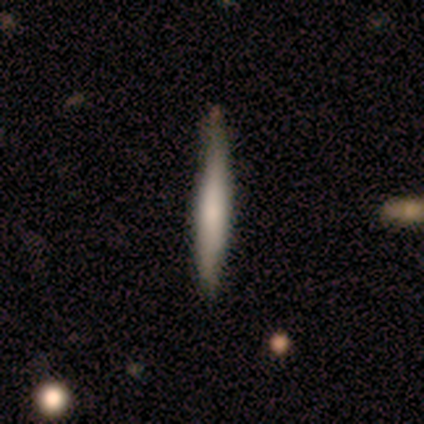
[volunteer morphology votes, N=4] Smooth or featured?
  - smooth: 75% *
  - featured or disk: 25%
  - star or artifact: 0%
How rounded?
  - cigar-shaped: 100% *
  - round: 0%
  - in between: 0%
Merging?
  - none: 75% *
  - minor disturbance: 25%
  - major disturbance: 0%
  - merger: 0%